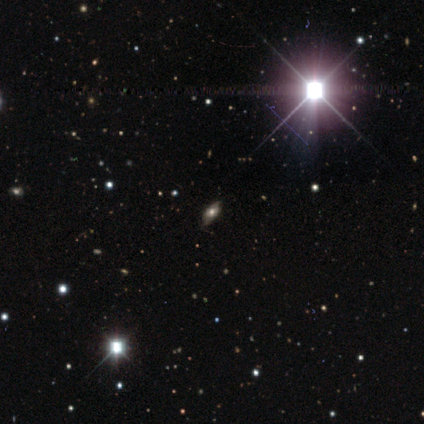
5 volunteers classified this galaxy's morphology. This appears to be a featured or disk galaxy (60%) with no bar (100%), medium (100%) spiral arms (50%, tied with no) and a moderate central bulge (100%). Merging: none (75%).